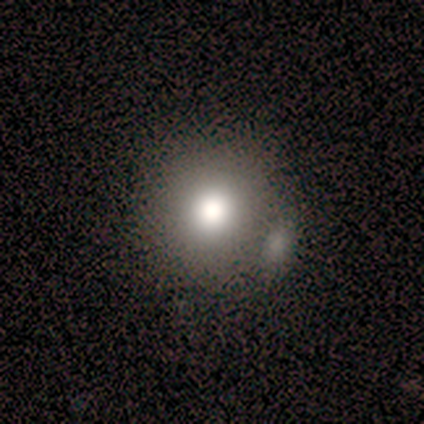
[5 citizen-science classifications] Overall: smooth (80%). How rounded: round (75%). Merging: merger (50%; none 25%).